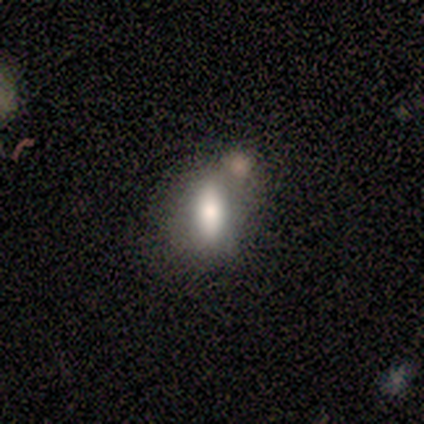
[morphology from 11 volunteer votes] type=smooth (82%); roundness=in between (78%); merging=none (45%, tied with merger).